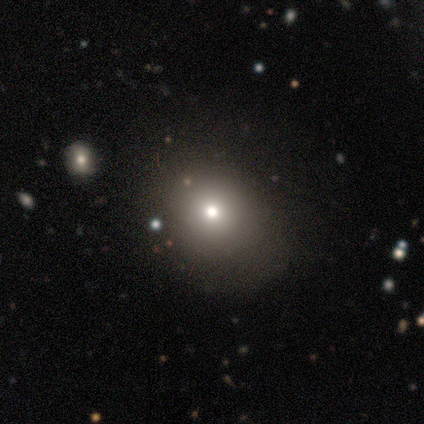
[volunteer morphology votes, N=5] A smooth galaxy with no disk features (80%) that is round (75%).

Vote fractions:
- Smooth or featured? smooth: 80% / star or artifact: 20% / featured or disk: 0%
- How rounded? round: 75% / in between: 25% / cigar-shaped: 0%
- Merging? none: 100% / minor disturbance: 0% / major disturbance: 0% / merger: 0%